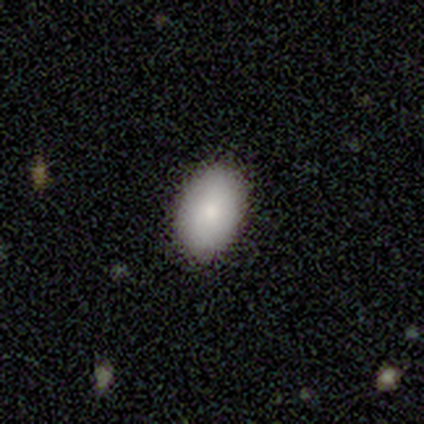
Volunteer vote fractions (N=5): This is clearly a smooth galaxy (100%). How rounded: clearly in between (100%). Merging: clearly none (80%).